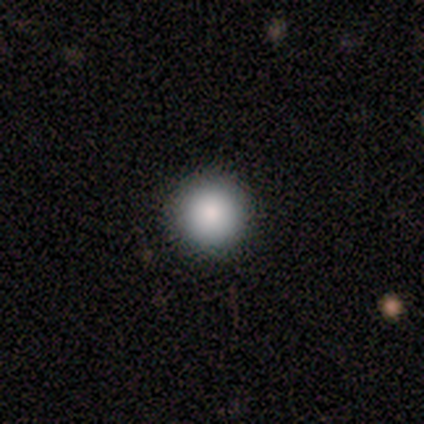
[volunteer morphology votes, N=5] This is clearly a smooth galaxy (80%). How rounded: clearly round (100%). Merging: clearly none (100%).